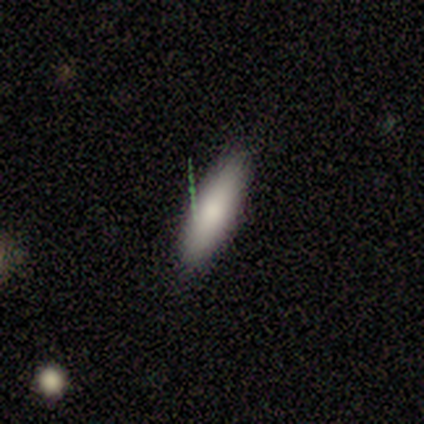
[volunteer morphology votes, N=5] Q: Smooth or featured?
A: smooth (100%)
Q: How rounded?
A: in between (60%); runner-up: cigar-shaped (40%)
Q: Merging?
A: none (100%)